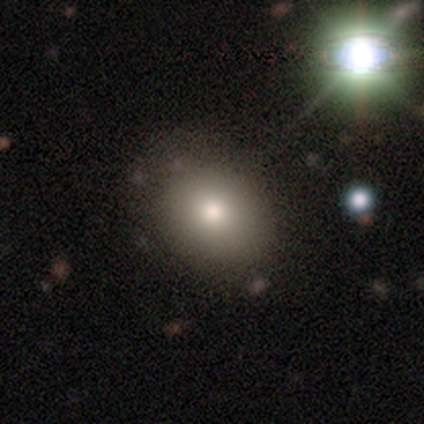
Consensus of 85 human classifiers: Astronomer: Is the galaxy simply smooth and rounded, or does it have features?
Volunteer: smooth — 73%.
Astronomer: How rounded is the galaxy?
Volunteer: in between — 56% (runner-up: round, 44%).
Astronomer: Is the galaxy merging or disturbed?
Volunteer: none — 83%.